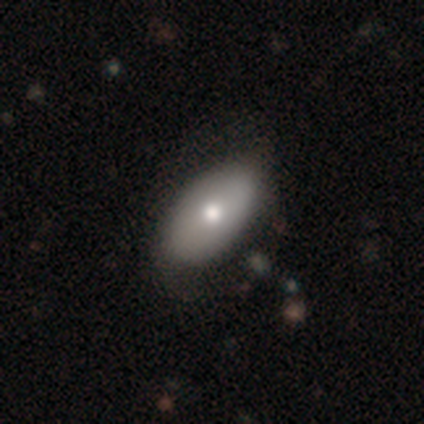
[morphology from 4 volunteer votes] type=smooth (100%); roundness=in between (100%); merging=none (50%, tied with minor disturbance).